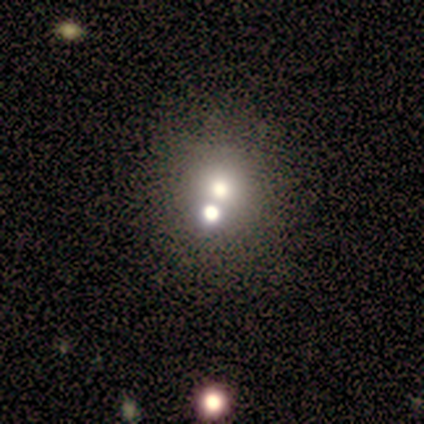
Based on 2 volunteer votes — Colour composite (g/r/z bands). It shows a smooth galaxy with no disk features (50%, tied with featured or disk) that is round (100%). Merging: none (50%, tied with merger).